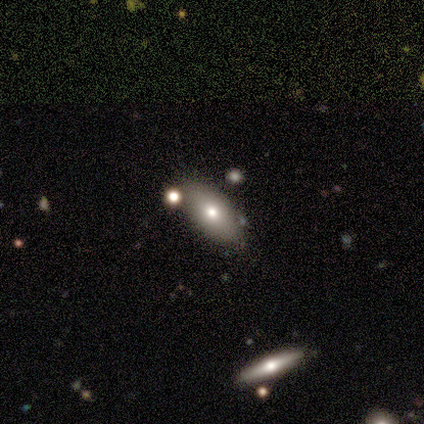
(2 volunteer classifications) Smooth or featured: smooth — 100%
How rounded: in between — 100%
Merging: none — 100%